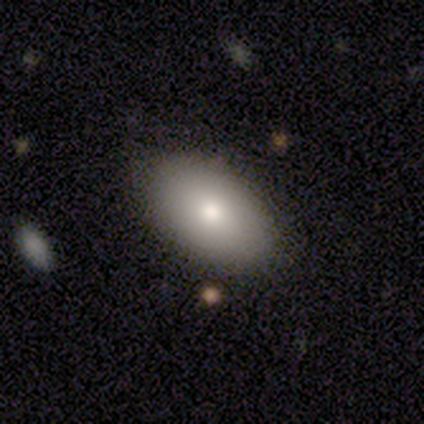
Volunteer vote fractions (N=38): This is clearly a smooth galaxy (87%). How rounded: clearly in between (94%). Merging: clearly none (84%).